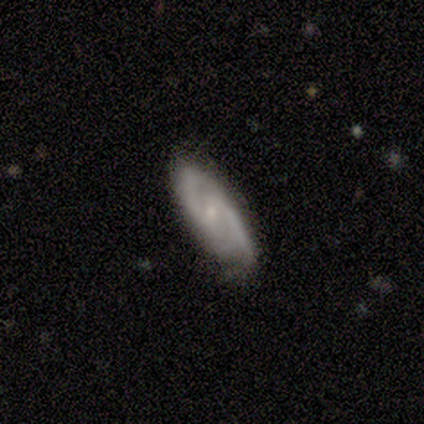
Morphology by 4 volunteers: smooth_or_featured: featured or disk (p=0.75) [alt: star or artifact p=0.25]
disk_edge_on: no (p=1.00)
bar: strong (p=0.33) [tied with: weak p=0.33, no p=0.33]
has_spiral_arms: yes (p=1.00)
spiral_winding: tight (p=0.67) [alt: loose p=0.33]
spiral_arm_count: 2 (p=1.00)
bulge_size: none (p=0.67) [alt: small p=0.33]
merging: none (p=0.67) [alt: minor disturbance p=0.33]